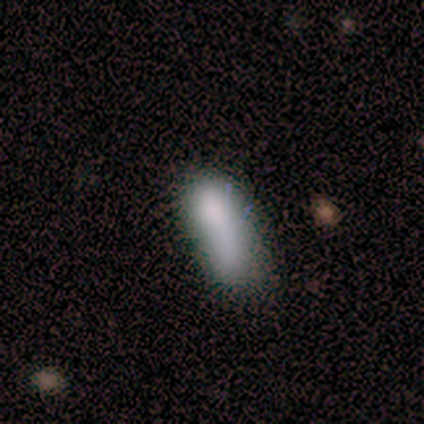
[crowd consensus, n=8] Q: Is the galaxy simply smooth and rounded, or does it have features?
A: smooth — 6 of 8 (75%).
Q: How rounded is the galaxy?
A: cigar-shaped — 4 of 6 (67%).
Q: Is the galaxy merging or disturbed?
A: none — 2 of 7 (29%, tied with minor disturbance and major disturbance).